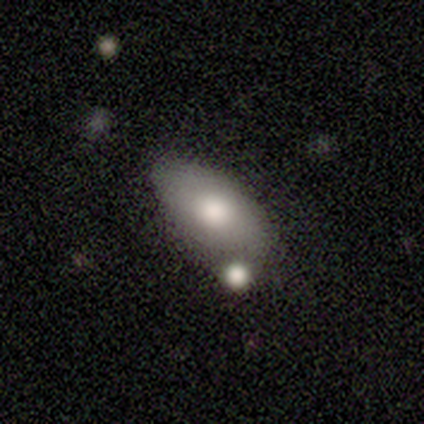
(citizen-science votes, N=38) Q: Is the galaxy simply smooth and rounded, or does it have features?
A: smooth — 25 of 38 (66%).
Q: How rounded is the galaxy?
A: in between — 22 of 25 (88%).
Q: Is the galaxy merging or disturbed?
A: none — 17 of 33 (52%).